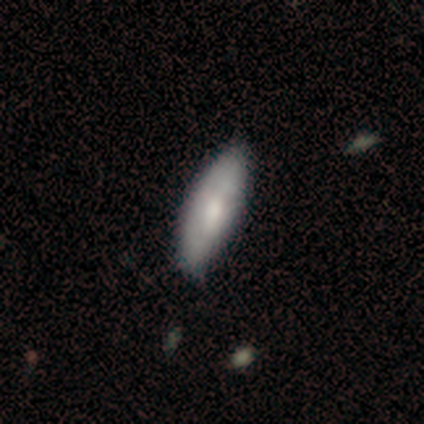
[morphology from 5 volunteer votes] Smooth or featured?
  - smooth: 60% *
  - featured or disk: 40%
  - star or artifact: 0%
How rounded?
  - in between: 67% *
  - cigar-shaped: 33%
  - round: 0%
Merging?
  - none: 80% *
  - minor disturbance: 20%
  - major disturbance: 0%
  - merger: 0%